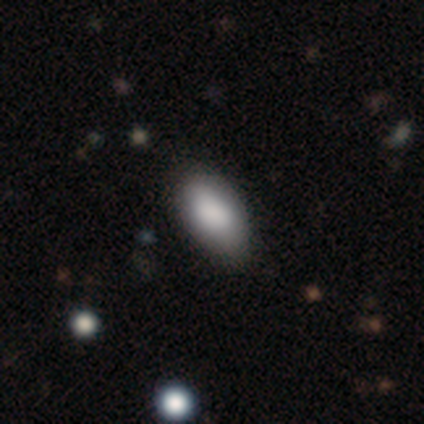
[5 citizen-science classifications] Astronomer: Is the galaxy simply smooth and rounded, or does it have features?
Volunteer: smooth — 100%.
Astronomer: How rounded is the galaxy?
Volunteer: in between — 100%.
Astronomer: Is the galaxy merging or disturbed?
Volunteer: none — 80%.